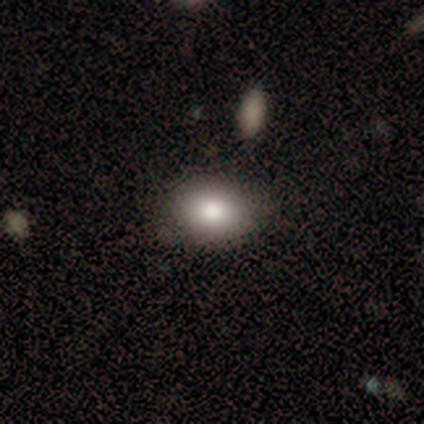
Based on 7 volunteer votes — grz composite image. It shows a smooth galaxy with no disk features (86%) that is in between round and cigar-shaped (83%). Merging: none (83%).